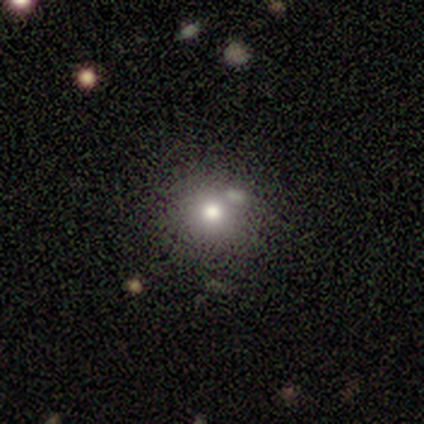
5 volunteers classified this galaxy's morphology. This is clearly a smooth galaxy (100%). How rounded: clearly round (80%). Merging: likely none (60%).